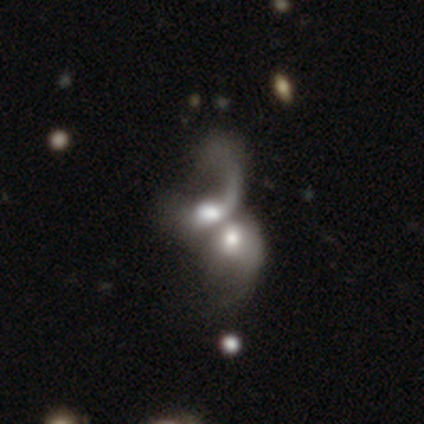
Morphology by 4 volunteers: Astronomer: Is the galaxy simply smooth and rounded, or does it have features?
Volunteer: smooth — 50%, tied with featured or disk at 50%.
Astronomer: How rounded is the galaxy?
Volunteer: round — 50%, tied with in between at 50%.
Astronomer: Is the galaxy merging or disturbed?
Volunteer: merger — 100%.